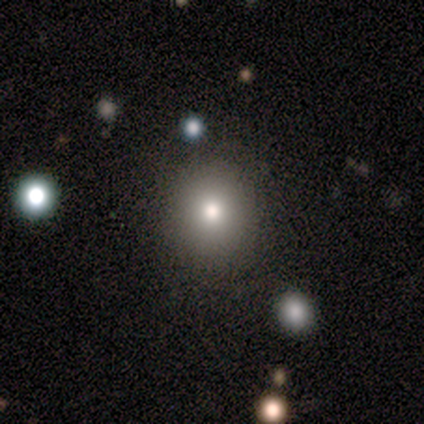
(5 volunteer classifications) Q: Smooth or featured?
A: smooth (60%); runner-up: star or artifact (40%)
Q: How rounded?
A: round (100%)
Q: Merging?
A: none (100%)